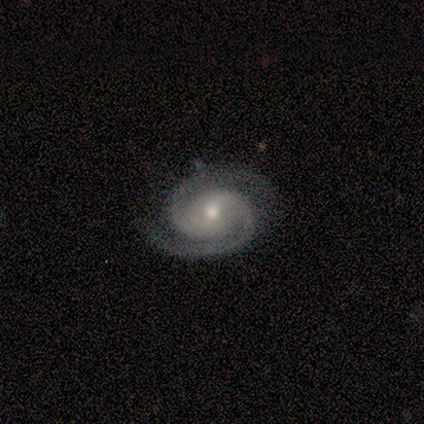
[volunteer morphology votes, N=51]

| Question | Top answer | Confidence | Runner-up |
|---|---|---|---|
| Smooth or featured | featured or disk | 96% | star or artifact (4%) |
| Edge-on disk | no | 100% | — |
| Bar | no | 59% | weak (35%) |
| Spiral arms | yes | 100% | — |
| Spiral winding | tight | 59% | medium (37%) |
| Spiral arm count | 2 | 98% | 3 (2%) |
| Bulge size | moderate | 71% | small (27%) |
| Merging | none | 88% | minor disturbance (10%) |